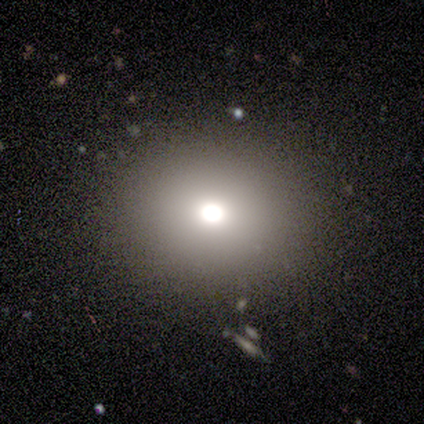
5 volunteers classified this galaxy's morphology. Smooth or featured: smooth — 40% (tied with featured or disk — 40%)
How rounded: in between — 50% (tied with cigar-shaped — 50%)
Merging: none — 100%